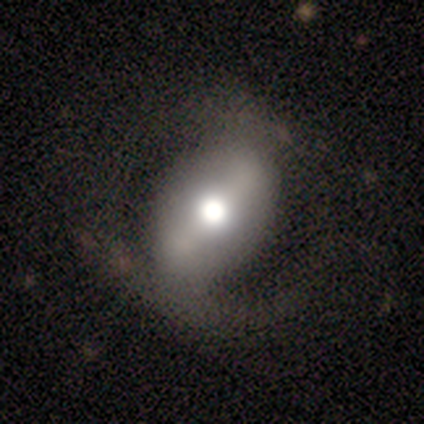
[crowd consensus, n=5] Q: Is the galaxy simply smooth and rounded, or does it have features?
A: smooth — 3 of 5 (60%).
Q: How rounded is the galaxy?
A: in between — 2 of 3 (67%).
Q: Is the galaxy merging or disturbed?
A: none — 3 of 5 (60%).